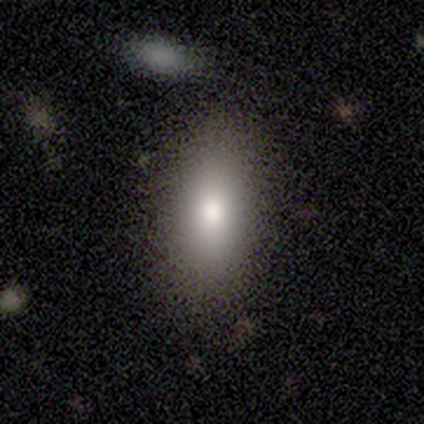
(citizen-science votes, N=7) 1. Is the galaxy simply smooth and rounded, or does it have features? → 100% smooth, 0% featured or disk, 0% star or artifact.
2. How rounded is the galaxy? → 57% in between, 29% cigar-shaped, 14% round.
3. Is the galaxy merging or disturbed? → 57% none, 29% minor disturbance, 14% major disturbance, 0% merger.